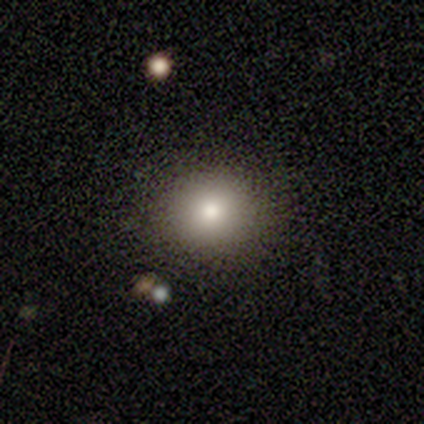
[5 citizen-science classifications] Smooth or featured: smooth — 100%
How rounded: round — 80% (in between — 20%)
Merging: none — 60% (minor disturbance — 40%)